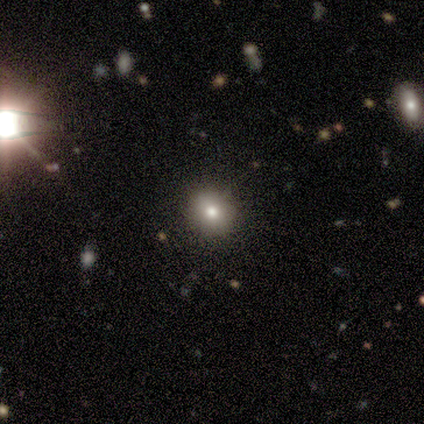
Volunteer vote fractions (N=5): Overall: smooth (40%, tied with featured or disk). How rounded: round (50%, tied with in between). Merging: none (75%).